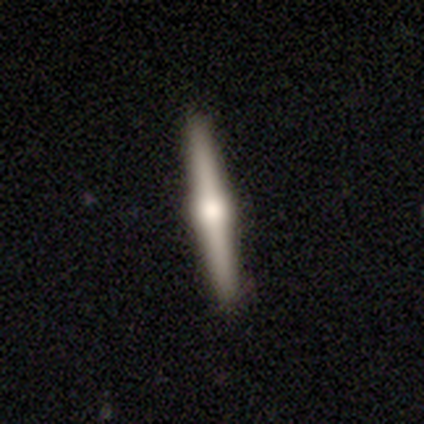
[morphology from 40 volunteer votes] This appears to be a featured or disk galaxy (82%) viewed edge-on (97%) with a rounded central bulge (94%). Merging: none (65%).